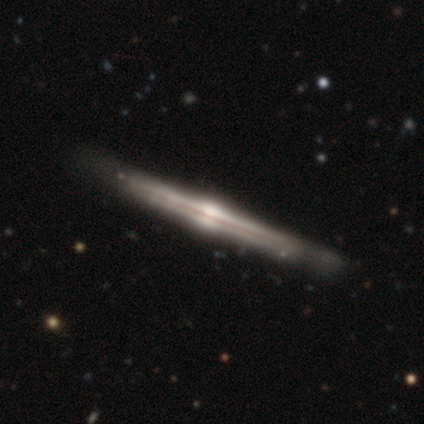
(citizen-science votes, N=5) A featured or disk galaxy (60%) viewed edge-on (100%) with a rounded central bulge (100%). Merging: none (100%).